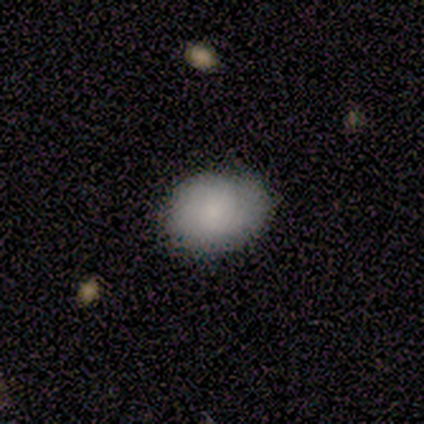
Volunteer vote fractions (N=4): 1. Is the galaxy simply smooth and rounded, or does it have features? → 100% smooth, 0% featured or disk, 0% star or artifact.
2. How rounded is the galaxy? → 75% in between, 25% round, 0% cigar-shaped.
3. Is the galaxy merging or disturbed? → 75% minor disturbance, 25% none, 0% major disturbance, 0% merger.